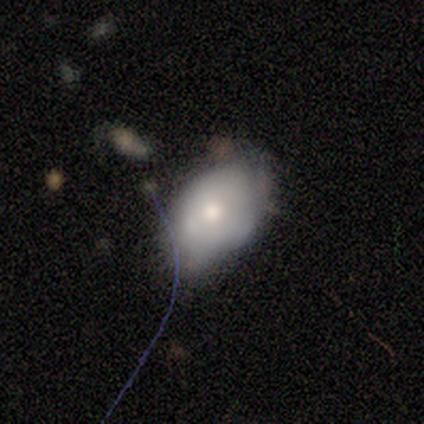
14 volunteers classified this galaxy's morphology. Overall: smooth (50%; featured or disk 43%). How rounded: in between (100%). Merging: none (69%; minor disturbance 31%).